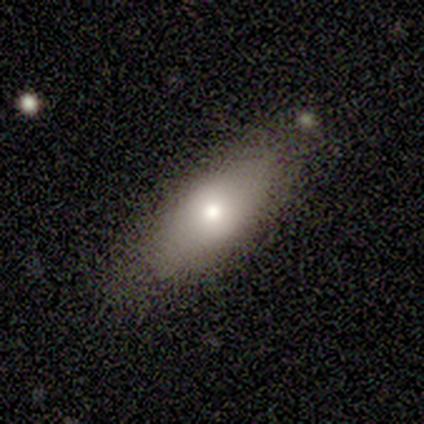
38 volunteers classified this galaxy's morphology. Smooth or featured? smooth (79%)
How rounded? in between (80%)
Merging? none (81%)